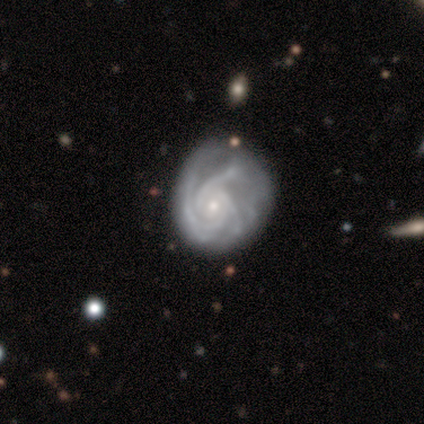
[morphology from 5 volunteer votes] A featured or disk galaxy (100%) with a weak bar (60%), 3 (60%) medium (60%) spiral arms (100%) and a small central bulge (100%). Merging: none (60%).